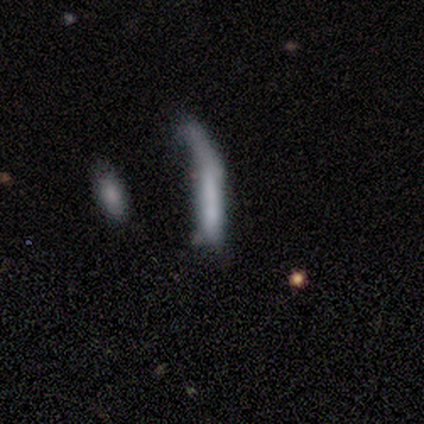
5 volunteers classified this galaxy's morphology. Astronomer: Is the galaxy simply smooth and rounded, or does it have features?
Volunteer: smooth — 80%.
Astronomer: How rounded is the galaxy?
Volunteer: cigar-shaped — 100%.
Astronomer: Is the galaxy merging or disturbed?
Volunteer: minor disturbance — 60% (runner-up: major disturbance, 40%).